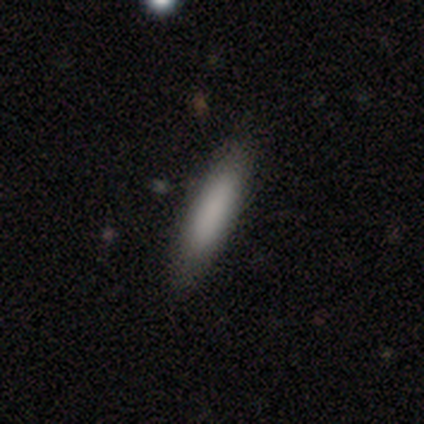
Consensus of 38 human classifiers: A smooth galaxy with no disk features (84%) that is cigar-shaped (78%). Merging: none (88%).